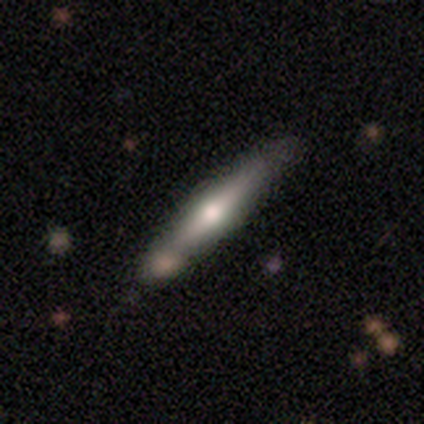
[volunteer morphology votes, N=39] smooth_or_featured: featured or disk (p=0.67) [alt: smooth p=0.33]
disk_edge_on: yes (p=0.92) [alt: no p=0.08]
edge_on_bulge: rounded (p=0.96) [alt: none p=0.04]
merging: none (p=0.51) [alt: merger p=0.18]